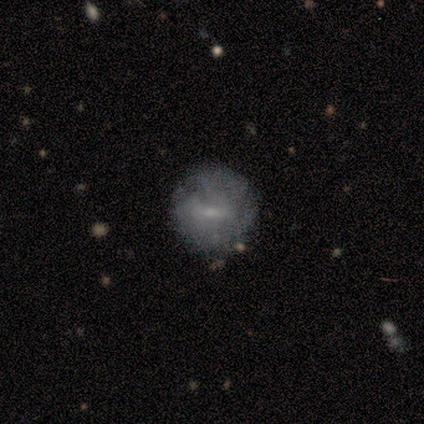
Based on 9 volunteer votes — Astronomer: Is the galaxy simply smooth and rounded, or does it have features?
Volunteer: smooth — 44%, tied with featured or disk at 44%.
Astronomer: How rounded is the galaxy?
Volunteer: round — 75%.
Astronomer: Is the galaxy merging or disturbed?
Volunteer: none — 100%.